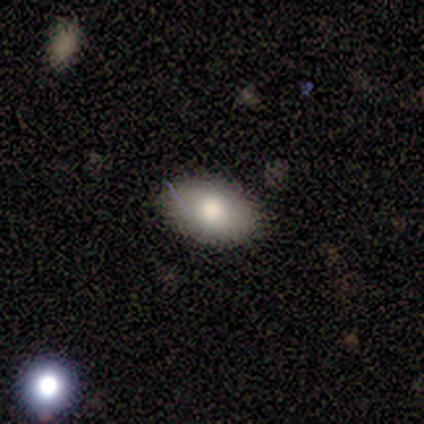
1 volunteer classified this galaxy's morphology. A featured or disk galaxy (100%) with a weak bar (100%), no spiral arms (100%) and no central bulge (100%). Merging: major disturbance (100%).